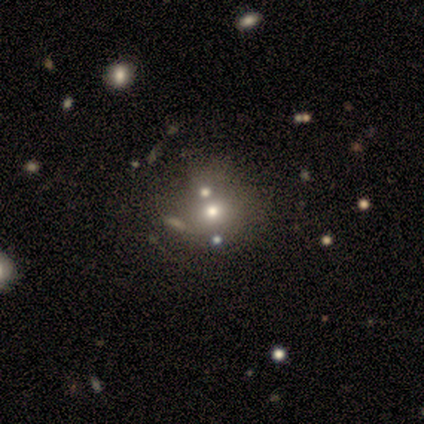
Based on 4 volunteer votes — smooth-or-featured: star or artifact: 75% | featured or disk: 25% | smooth: 0%